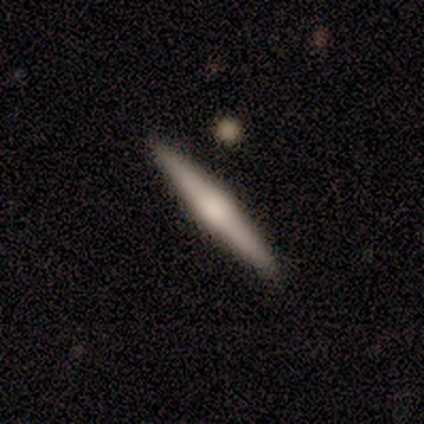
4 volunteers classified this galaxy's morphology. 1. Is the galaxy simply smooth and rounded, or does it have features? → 100% smooth, 0% featured or disk, 0% star or artifact.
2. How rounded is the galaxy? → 100% cigar-shaped, 0% round, 0% in between.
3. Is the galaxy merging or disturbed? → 100% none, 0% minor disturbance, 0% major disturbance, 0% merger.